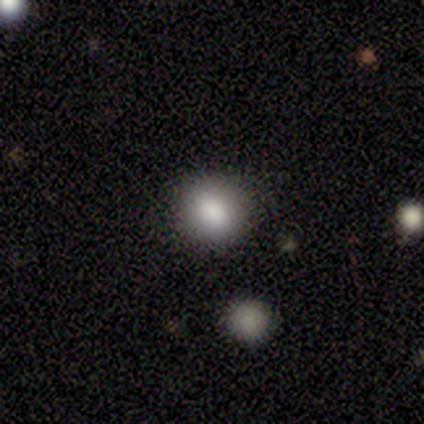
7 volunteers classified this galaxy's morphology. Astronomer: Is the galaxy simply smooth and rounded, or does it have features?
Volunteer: smooth — 86%.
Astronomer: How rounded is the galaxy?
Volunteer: round — 83%.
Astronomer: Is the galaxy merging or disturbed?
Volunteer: none — 100%.